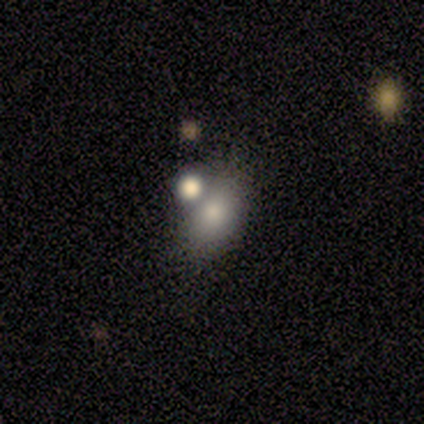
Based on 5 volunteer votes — This is clearly a smooth galaxy (80%). How rounded: possibly round (50%). Merging: clearly merger (80%).